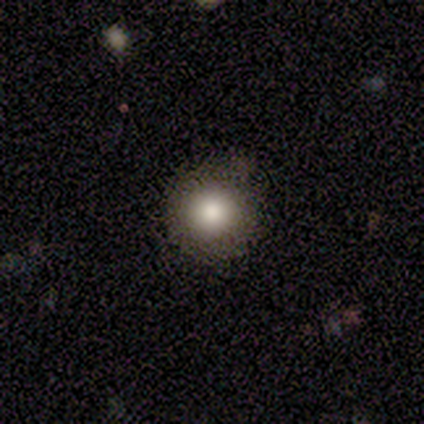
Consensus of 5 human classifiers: smooth_or_featured: smooth (p=0.80) [alt: featured or disk p=0.20]
how_rounded: round (p=1.00)
merging: none (p=1.00)